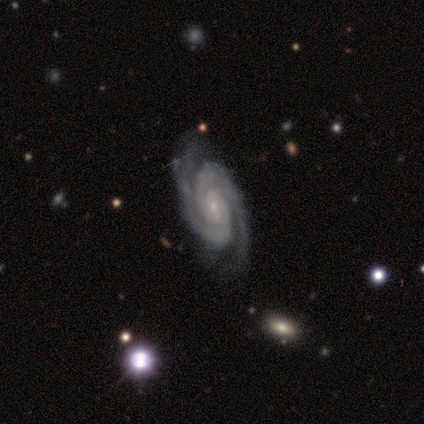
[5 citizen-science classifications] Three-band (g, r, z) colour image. It shows a featured or disk galaxy (80%) with no bar (100%), 2 (100%) tight (100%) spiral arms (100%) and a small central bulge (100%). Merging: none (80%).